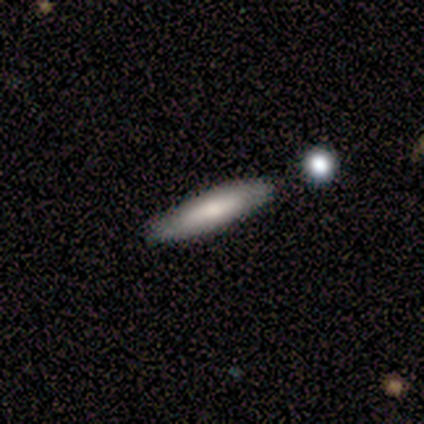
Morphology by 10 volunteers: Smooth or featured: smooth — 70% (featured or disk — 30%)
How rounded: cigar-shaped — 86% (in between — 14%)
Merging: none — 90% (minor disturbance — 10%)